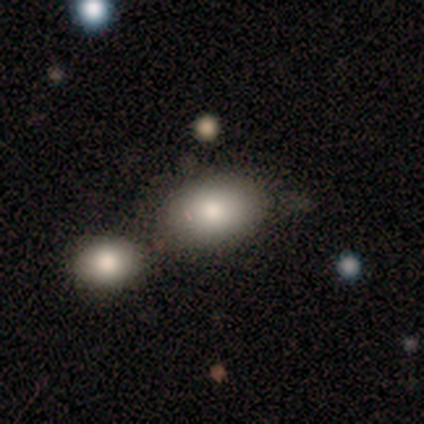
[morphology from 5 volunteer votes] Smooth or featured? smooth (80%)
How rounded? in between (100%)
Merging? none (60%)